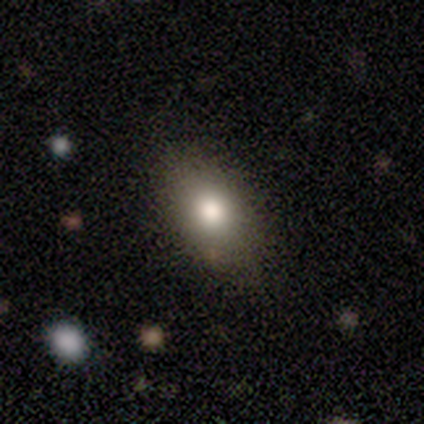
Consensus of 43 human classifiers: Overall: smooth (81%). How rounded: in between (89%). Merging: none (85%).